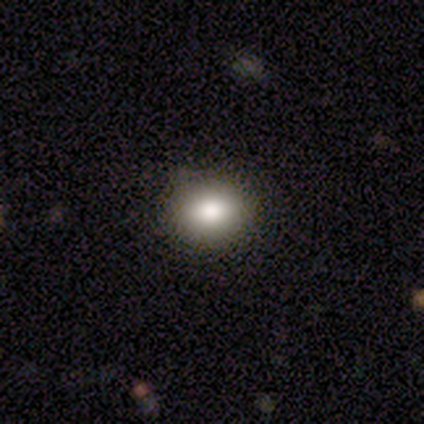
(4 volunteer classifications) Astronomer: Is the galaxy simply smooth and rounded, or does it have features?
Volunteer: smooth — 75%.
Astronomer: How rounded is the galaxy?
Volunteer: in between — 67%.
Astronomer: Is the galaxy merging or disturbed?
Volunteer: none — 75%.